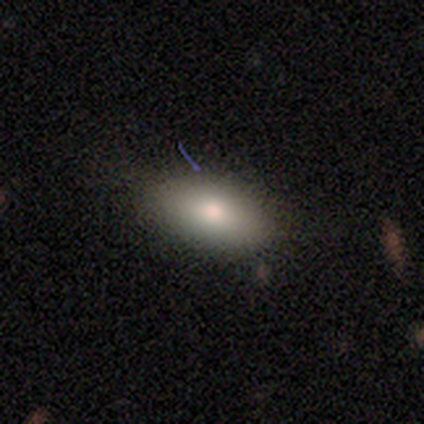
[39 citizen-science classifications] smooth_or_featured: smooth (p=0.90) [alt: featured or disk p=0.05]
how_rounded: in between (p=0.97) [alt: round p=0.03]
merging: none (p=0.89) [alt: minor disturbance p=0.08]